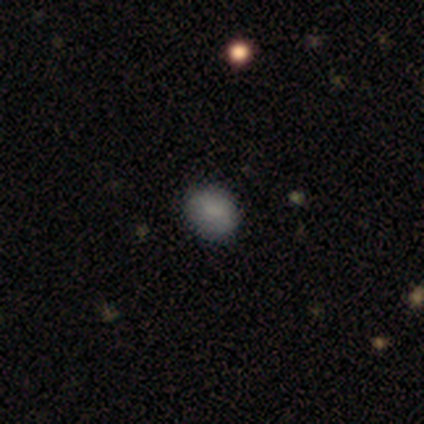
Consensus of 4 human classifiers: This appears to be a smooth galaxy with no disk features (100%) that is round (75%). Merging: none (75%).